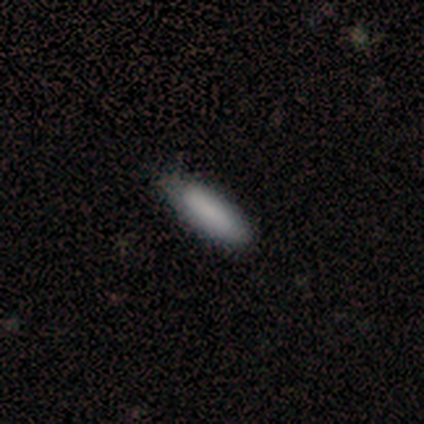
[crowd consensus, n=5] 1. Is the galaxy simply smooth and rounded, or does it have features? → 80% smooth, 20% featured or disk, 0% star or artifact.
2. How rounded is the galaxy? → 50% in between (tied), 50% cigar-shaped (tied), 0% round.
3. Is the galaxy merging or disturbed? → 60% none, 40% minor disturbance, 0% major disturbance, 0% merger.